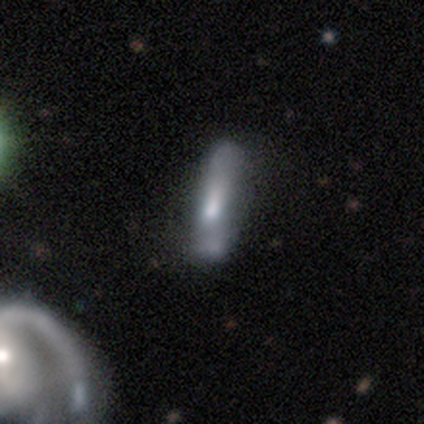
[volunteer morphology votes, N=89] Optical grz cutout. It shows a smooth galaxy with no disk features (47%) that is cigar-shaped (81%). Merging: none (51%).